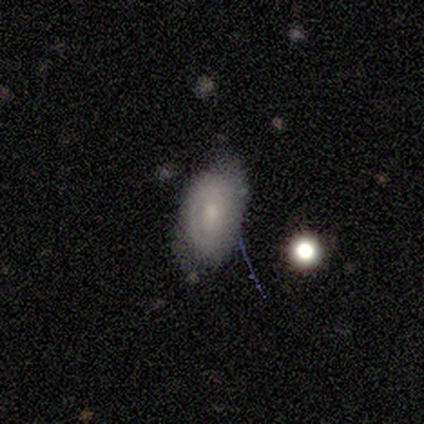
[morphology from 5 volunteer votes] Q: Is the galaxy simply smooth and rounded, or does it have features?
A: smooth — 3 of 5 (60%).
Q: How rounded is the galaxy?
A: in between — 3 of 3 (100%).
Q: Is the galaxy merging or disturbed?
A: none — 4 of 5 (80%).